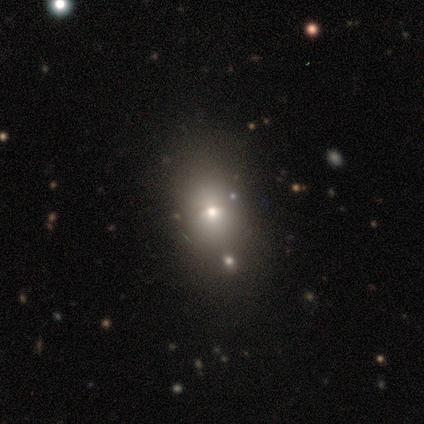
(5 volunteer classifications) Volunteers were most divided on "how rounded": in between: 67%, round: 33%, cigar-shaped: 0%. More confident: merging — none (100%); smooth or featured — smooth (60%).